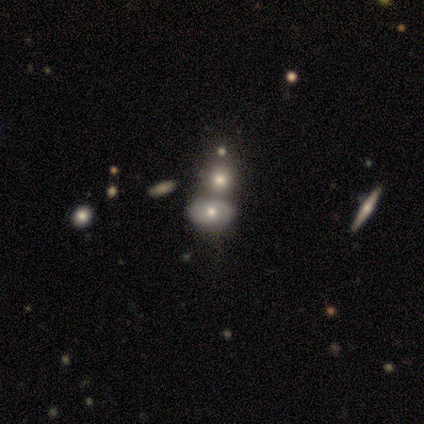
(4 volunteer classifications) This appears to be a smooth galaxy with no disk features (50%, tied with featured or disk) that is in between round and cigar-shaped (100%). Merging: none (75%).